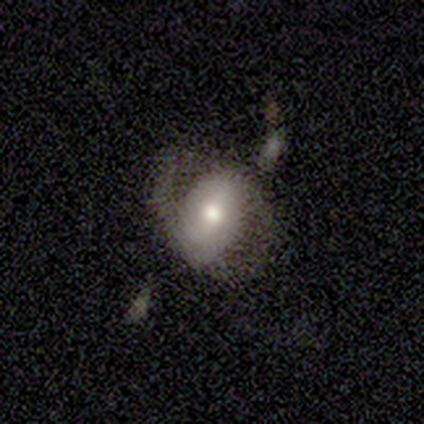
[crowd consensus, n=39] smooth-or-featured: featured or disk: 67% | smooth: 23% | star or artifact: 10%
  disk-edge-on: no: 88% | yes: 12%
    bar: strong: 39% (tied) | weak: 39% (tied) | no: 22%
    has-spiral-arms: yes: 70% | no: 30%
      spiral-winding: medium: 56% | loose: 38% | tight: 6%
      spiral-arm-count: 2: 75% | 1: 12% | can't tell: 12% | 3: 0% | 4: 0% | more than 4: 0%
    bulge-size: moderate: 65% | large: 22% | small: 13% | dominant: 0% | none: 0%
  merging: none: 49% | minor disturbance: 34% | major disturbance: 14% | merger: 3%